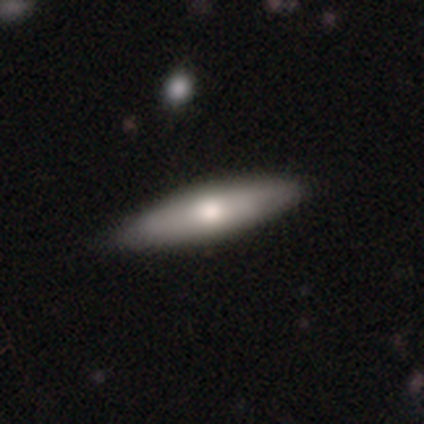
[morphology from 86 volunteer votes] Q: Smooth or featured?
A: smooth (53%); runner-up: featured or disk (45%)
Q: How rounded?
A: cigar-shaped (63%); runner-up: in between (37%)
Q: Merging?
A: none (81%); runner-up: minor disturbance (19%)